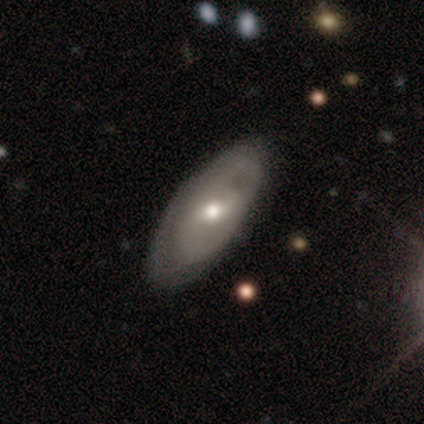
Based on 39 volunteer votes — A featured or disk galaxy (77%) with a weak bar (67%), tight (55%) spiral arms (74%) and a moderate central bulge (78%).

Vote fractions:
- Smooth or featured? featured or disk: 77% / smooth: 23% / star or artifact: 0%
- Edge-on disk? no: 90% / yes: 10%
- Bar? weak: 67% / no: 26% / strong: 7%
- Spiral arms? yes: 74% / no: 26%
- Spiral winding? tight: 55% / medium: 35% / loose: 10%
- Spiral arm count? can't tell: 40% / 2: 30% / 1: 20% / 3: 10% / 4: 0% / more than 4: 0%
- Bulge size? moderate: 78% / small: 15% / large: 7% / dominant: 0% / none: 0%
- Merging? none: 56% / minor disturbance: 18% / major disturbance: 3% / merger: 3%